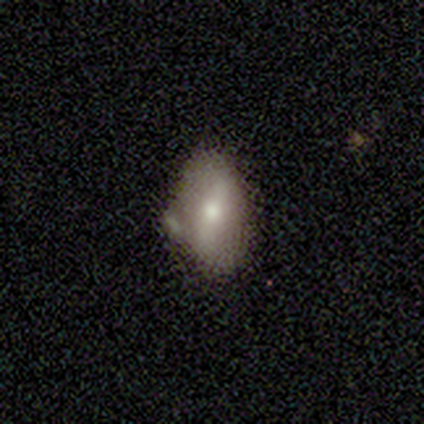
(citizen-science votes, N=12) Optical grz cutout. It shows a featured or disk galaxy (67%) with a strong bar (57%), no spiral arms (71%) and a small central bulge (57%). Merging: none (58%).